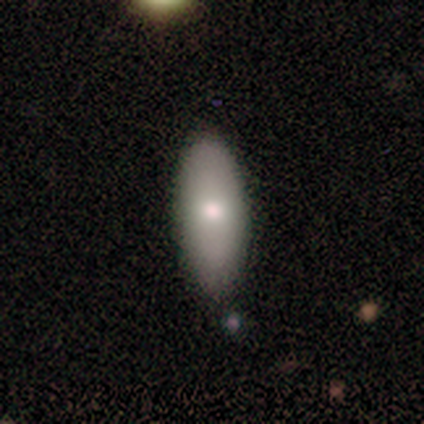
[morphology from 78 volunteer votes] This is likely a smooth galaxy (79%). How rounded: clearly in between (90%). Merging: possibly none (51%).